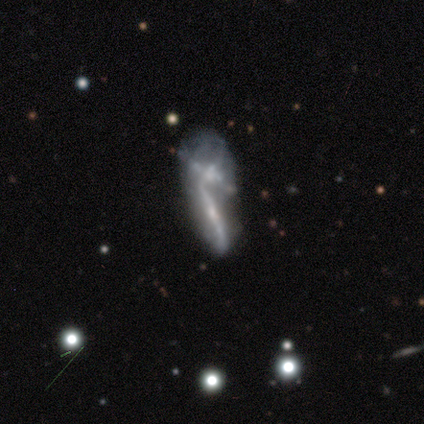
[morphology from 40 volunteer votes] Q: Smooth or featured?
A: featured or disk (70%); runner-up: smooth (20%)
Q: Edge-on disk?
A: no (54%); runner-up: yes (46%)
Q: Bar?
A: no (80%); runner-up: weak (13%)
Q: Spiral arms?
A: no (60%); runner-up: yes (40%)
Q: Bulge size?
A: small (60%); runner-up: none (27%)
Q: Merging?
A: merger (75%); runner-up: none (8%)